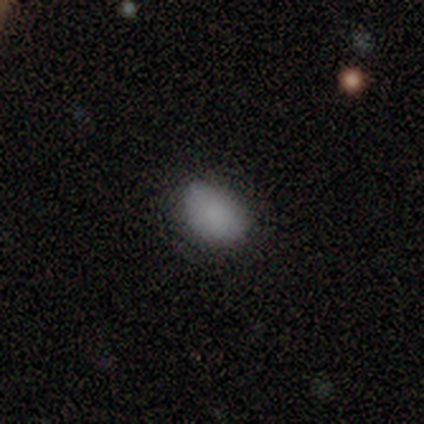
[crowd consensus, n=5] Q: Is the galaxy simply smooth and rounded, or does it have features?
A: smooth — 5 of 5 (100%).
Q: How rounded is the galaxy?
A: in between — 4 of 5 (80%).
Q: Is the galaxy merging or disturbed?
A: minor disturbance — 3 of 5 (60%).